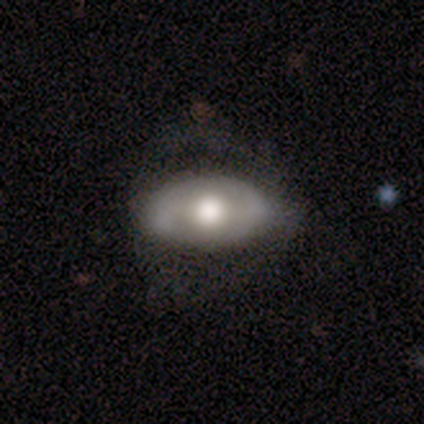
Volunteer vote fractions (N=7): Smooth or featured?
  - smooth: 57% *
  - featured or disk: 43%
  - star or artifact: 0%
How rounded?
  - in between: 100% *
  - round: 0%
  - cigar-shaped: 0%
Merging?
  - major disturbance: 57% *
  - none: 29%
  - minor disturbance: 14%
  - merger: 0%